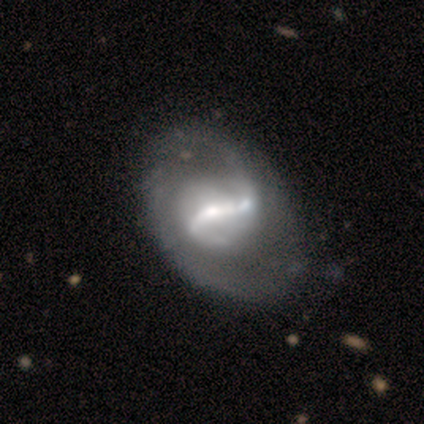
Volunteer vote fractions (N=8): smooth_or_featured: featured or disk (p=0.88) [alt: smooth p=0.12]
disk_edge_on: no (p=1.00)
bar: strong (p=1.00)
has_spiral_arms: yes (p=1.00)
spiral_winding: tight (p=0.43) [alt: medium p=0.29]
spiral_arm_count: 2 (p=0.71) [alt: 1 p=0.14]
bulge_size: large (p=0.43) [tied with: moderate p=0.43]
merging: none (p=0.50) [alt: minor disturbance p=0.38]